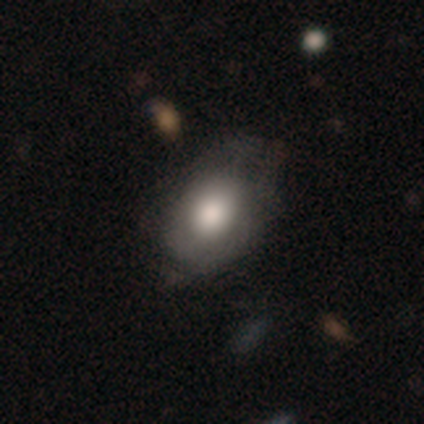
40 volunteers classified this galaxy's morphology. Smooth or featured? smooth (62%)
How rounded? in between (64%)
Merging? none (62%)